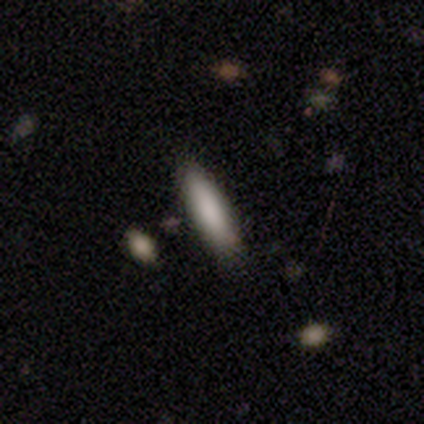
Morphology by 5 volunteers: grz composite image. It shows a smooth galaxy with no disk features (100%) that is cigar-shaped (60%). Merging: minor disturbance (60%).